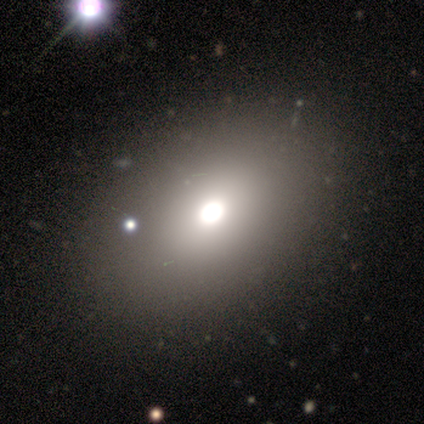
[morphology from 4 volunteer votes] Smooth or featured?
  - smooth: 75% *
  - star or artifact: 25%
  - featured or disk: 0%
How rounded?
  - in between: 100% *
  - round: 0%
  - cigar-shaped: 0%
Merging?
  - none: 100% *
  - minor disturbance: 0%
  - major disturbance: 0%
  - merger: 0%